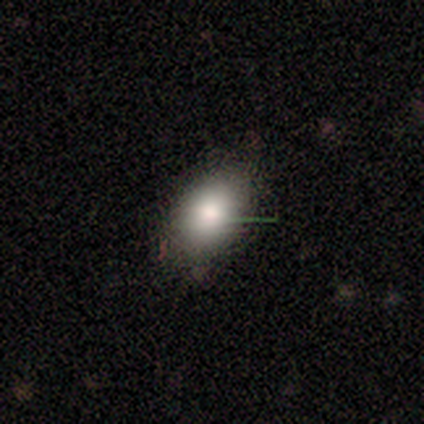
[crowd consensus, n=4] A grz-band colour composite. It shows a smooth galaxy with no disk features (100%) that is in between round and cigar-shaped (75%). Merging: none (75%).